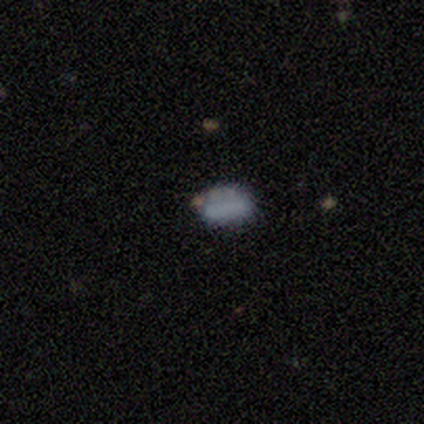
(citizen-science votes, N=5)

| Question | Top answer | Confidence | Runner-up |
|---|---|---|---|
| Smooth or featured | smooth | 80% | featured or disk (20%) |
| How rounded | in between | 75% | round (25%) |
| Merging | none | 40% | minor disturbance (20%) |